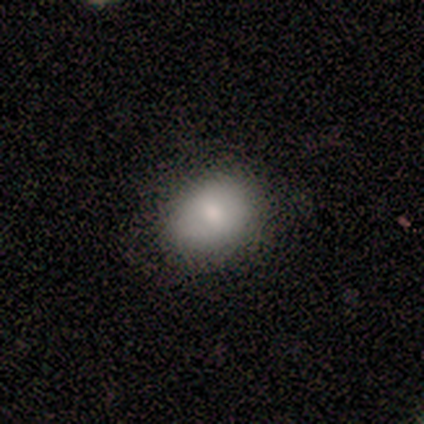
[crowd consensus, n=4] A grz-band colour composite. It shows a smooth galaxy with no disk features (75%) that is round (67%). Merging: none (100%).